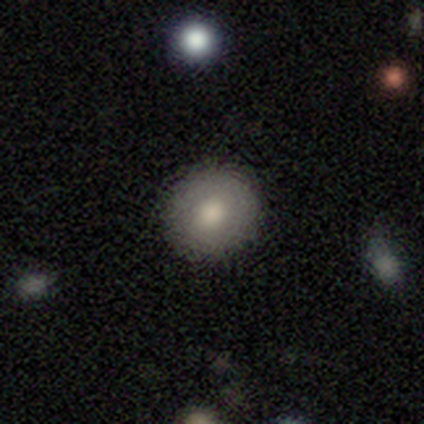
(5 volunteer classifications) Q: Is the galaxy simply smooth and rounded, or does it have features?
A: smooth — 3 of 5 (60%).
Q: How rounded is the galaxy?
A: round — 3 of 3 (100%).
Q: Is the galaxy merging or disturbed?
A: none — 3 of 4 (75%).